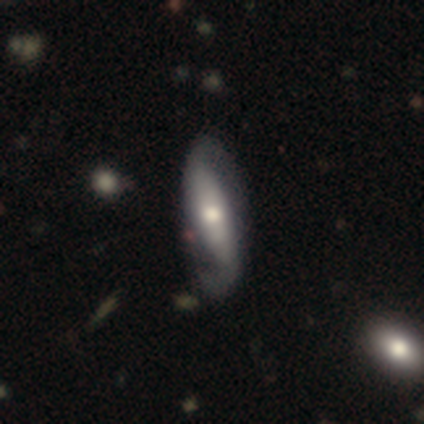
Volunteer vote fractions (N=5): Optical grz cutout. It shows a featured or disk galaxy (100%) with a weak bar (50%), 2 (100%) medium (50%) spiral arms (100%) and a small central bulge (75%). Merging: none (40%, tied with minor disturbance).